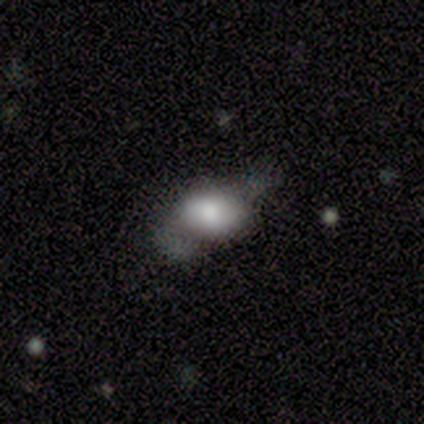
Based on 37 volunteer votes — A smooth galaxy with no disk features (65%) that is in between round and cigar-shaped (79%).

Vote fractions:
- Smooth or featured? smooth: 65% / featured or disk: 30% / star or artifact: 5%
- How rounded? in between: 79% / round: 21% / cigar-shaped: 0%
- Merging? major disturbance: 40% / none: 31% / minor disturbance: 23% / merger: 6%